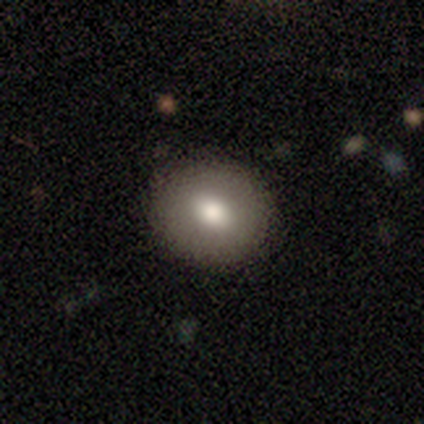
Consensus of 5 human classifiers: Overall: smooth (80%). How rounded: round (50%, tied with in between). Merging: none (100%).